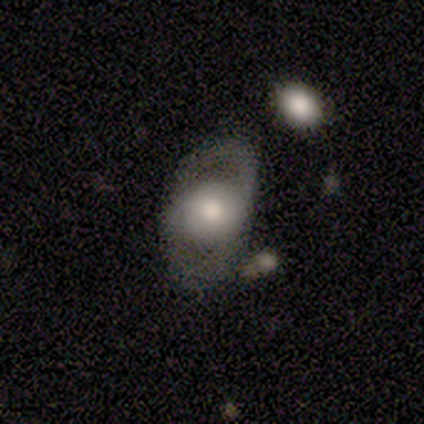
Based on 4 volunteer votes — smooth-or-featured: smooth: 75% | featured or disk: 25% | star or artifact: 0%
  how-rounded: round: 67% | in between: 33% | cigar-shaped: 0%
  merging: major disturbance: 50% | none: 25% | minor disturbance: 25% | merger: 0%